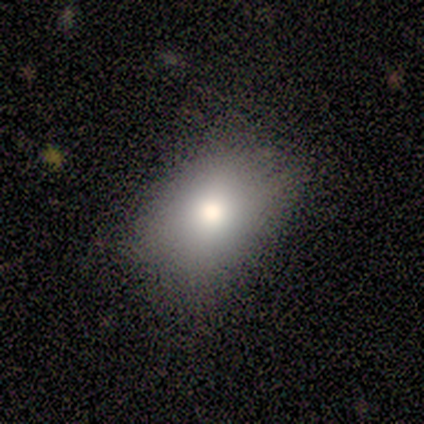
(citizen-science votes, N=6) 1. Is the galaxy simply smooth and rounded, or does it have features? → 67% smooth, 17% featured or disk, 17% star or artifact.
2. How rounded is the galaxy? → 100% in between, 0% round, 0% cigar-shaped.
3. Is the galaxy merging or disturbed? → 80% none, 20% major disturbance, 0% minor disturbance, 0% merger.